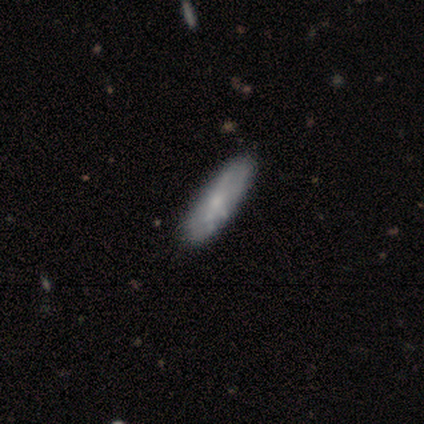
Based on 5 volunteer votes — Smooth or featured? 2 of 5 (40%, tied with featured or disk) said smooth. How rounded? 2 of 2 (100%) said in between. Merging? 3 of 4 (75%) said none.